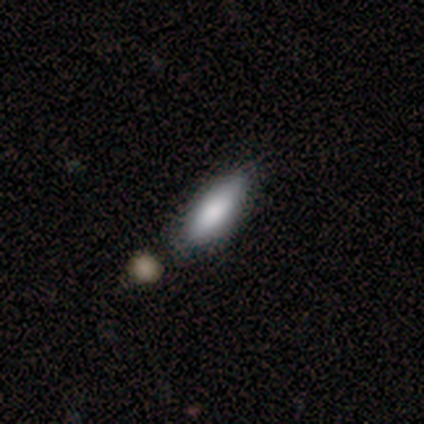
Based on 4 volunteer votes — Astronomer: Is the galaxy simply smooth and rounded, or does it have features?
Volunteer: smooth — 75%.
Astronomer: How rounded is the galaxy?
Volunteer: in between — 100%.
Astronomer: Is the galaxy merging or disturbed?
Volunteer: none — 67%.